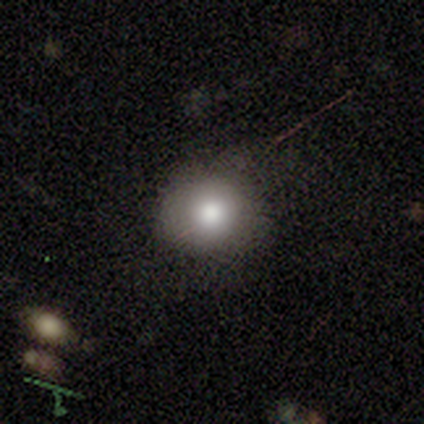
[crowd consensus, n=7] This is clearly a smooth galaxy (86%). How rounded: clearly round (83%). Merging: likely none (71%).